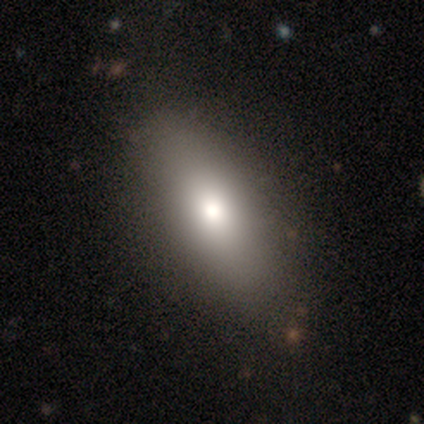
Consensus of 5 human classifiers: Overall: smooth (60%; featured or disk 20%). How rounded: in between (100%). Merging: none (75%).